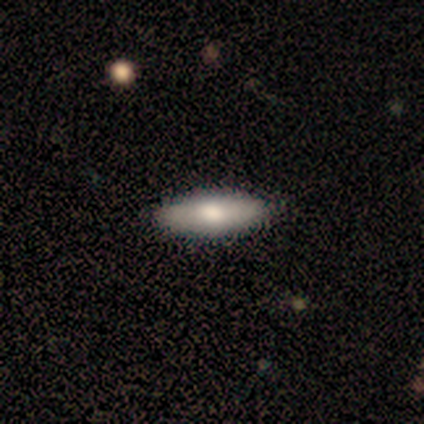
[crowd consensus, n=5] smooth 60%, featured or disk 40%, star or artifact 0%. Down the decision tree: how rounded — in between (67%); merging — none (100%).